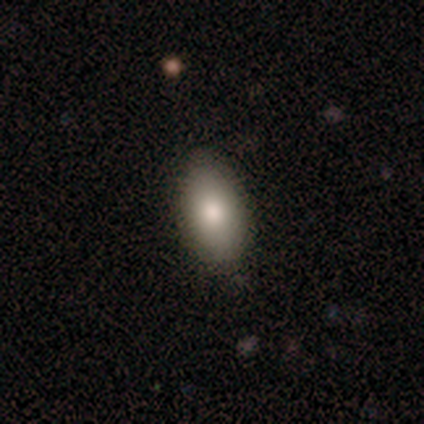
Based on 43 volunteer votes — This is clearly a smooth galaxy (84%). How rounded: clearly in between (86%). Merging: clearly none (85%).